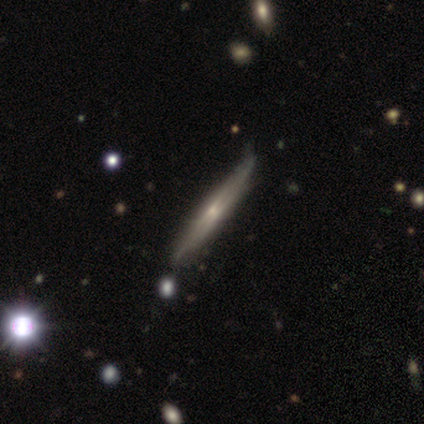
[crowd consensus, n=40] This is likely a featured or disk galaxy (70%). It is clearly viewed edge-on (100%). Edge-on bulge: likely rounded (68%). Merging: marginally none (37%).